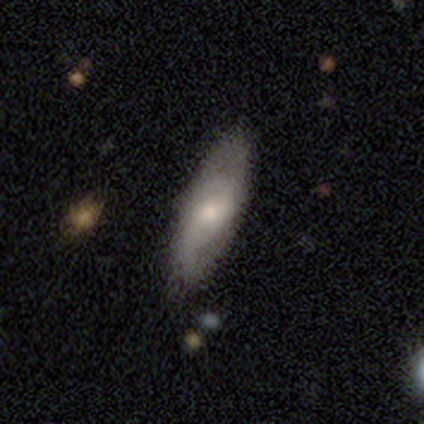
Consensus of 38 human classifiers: This is possibly a featured or disk galaxy (53%). It is clearly not viewed edge-on (80%). Bar: possibly no (56%). Spiral arm pattern: clearly yes (81%). Spiral arm count: clearly 2 (85%). Spiral winding: marginally medium (38%, tied with loose). Central bulge: possibly moderate (56%). Merging: likely none (74%).